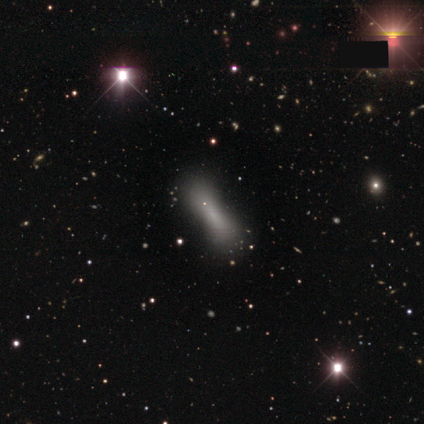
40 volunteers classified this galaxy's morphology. smooth 72%, star or artifact 15%, featured or disk 12%. Down the decision tree: how rounded — cigar-shaped (66%); merging — none (71%).